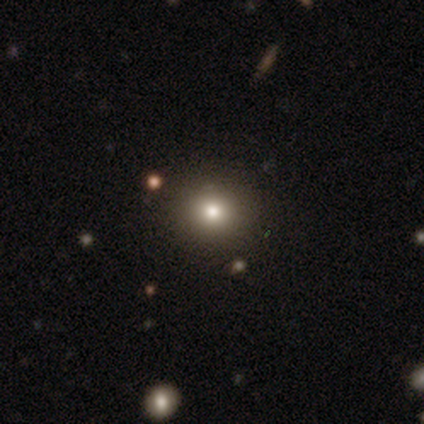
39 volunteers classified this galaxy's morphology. Smooth or featured? 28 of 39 (72%) said smooth. How rounded? 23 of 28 (82%) said round. Merging? 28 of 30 (93%) said none.